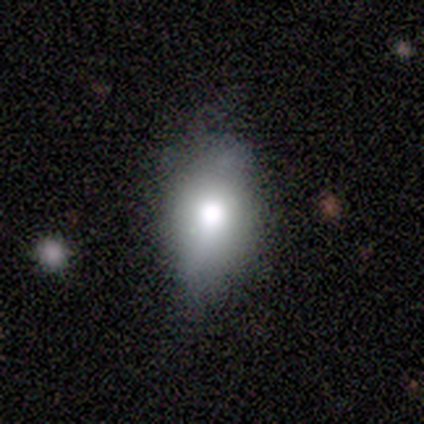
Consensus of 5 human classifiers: smooth 80%, featured or disk 20%, star or artifact 0%. Down the decision tree: how rounded — in between (75%); merging — none (80%).